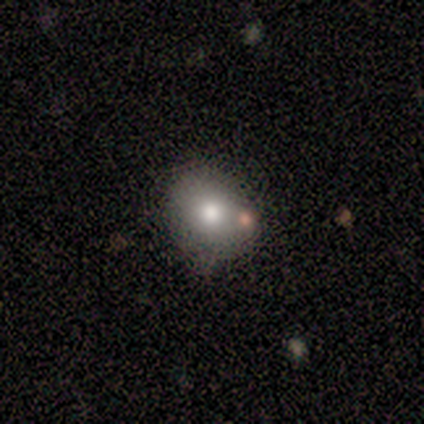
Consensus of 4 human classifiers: Morphology: type=smooth (50%); roundness=round (50%, tied with in between); merging=none (100%).